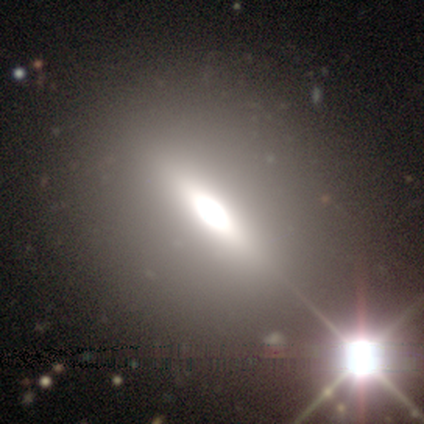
A star or artifact, not a galaxy (62%).